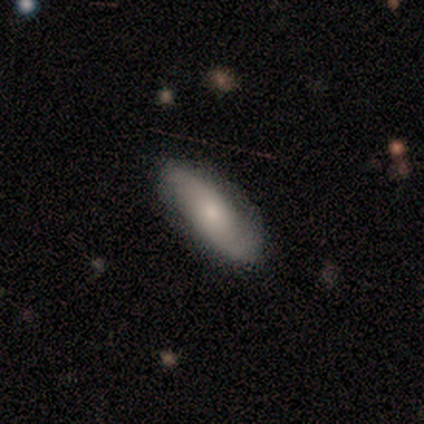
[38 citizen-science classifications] Smooth or featured: smooth — 58% (featured or disk — 42%)
How rounded: in between — 86% (cigar-shaped — 9%)
Merging: none — 89% (minor disturbance — 11%)